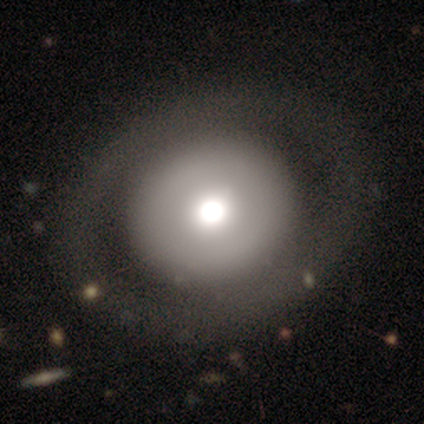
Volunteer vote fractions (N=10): This appears to be a featured or disk galaxy (60%) with no bar (83%), no spiral arms (100%) and a moderate central bulge (67%). Merging: none (90%).